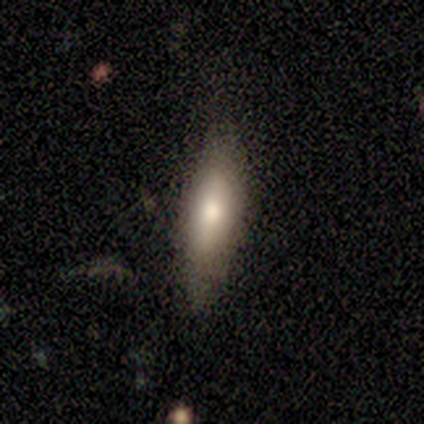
Volunteers were most divided on "smooth or featured": smooth: 60%, featured or disk: 40%, star or artifact: 0%. More confident: how rounded — cigar-shaped (100%); merging — none (80%).